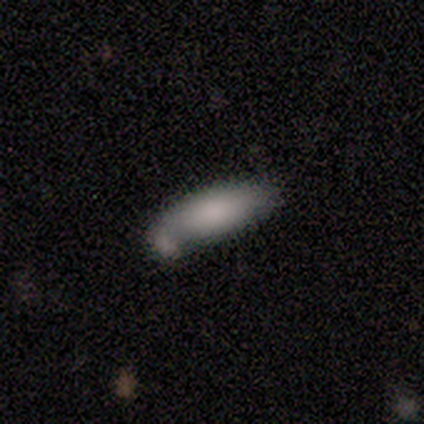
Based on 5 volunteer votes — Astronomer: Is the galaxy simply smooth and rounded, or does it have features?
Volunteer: smooth — 100%.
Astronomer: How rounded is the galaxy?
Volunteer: in between — 80%.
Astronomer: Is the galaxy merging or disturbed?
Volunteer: none — 60% (runner-up: minor disturbance, 40%).